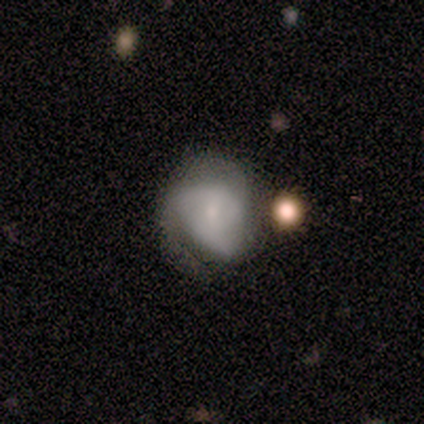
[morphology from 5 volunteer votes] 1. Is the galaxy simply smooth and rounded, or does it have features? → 60% featured or disk, 40% smooth, 0% star or artifact.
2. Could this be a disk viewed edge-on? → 100% no, 0% yes.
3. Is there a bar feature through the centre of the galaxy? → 67% no, 33% weak, 0% strong.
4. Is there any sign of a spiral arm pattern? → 67% yes, 33% no.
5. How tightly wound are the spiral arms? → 50% tight (tied), 50% loose (tied), 0% medium.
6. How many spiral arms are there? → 50% 2 (tied), 50% 3 (tied), 0% 1, 0% 4, 0% more than 4, 0% can't tell.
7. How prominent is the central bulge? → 100% small, 0% dominant, 0% large, 0% moderate, 0% none.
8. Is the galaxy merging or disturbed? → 40% none (tied), 40% minor disturbance (tied), 20% major disturbance, 0% merger.